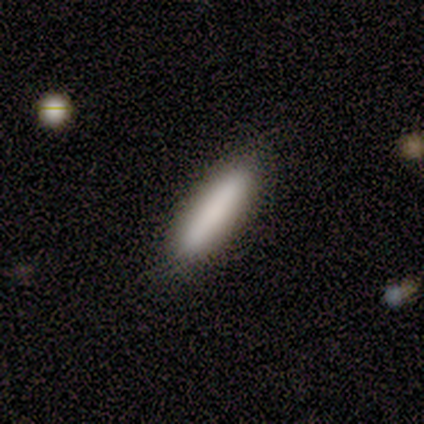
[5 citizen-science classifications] smooth 80%, featured or disk 20%, star or artifact 0%. Down the decision tree: how rounded — in between (50%, tied with cigar-shaped); merging — none (80%).